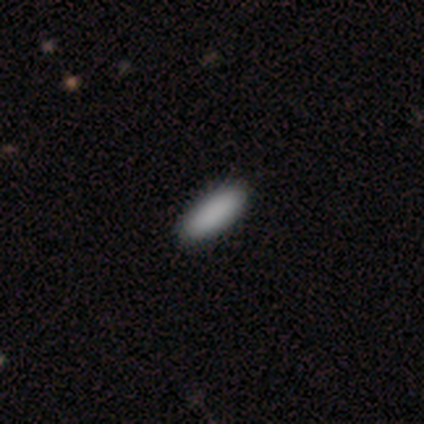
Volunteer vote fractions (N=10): Q: Smooth or featured?
A: smooth (100%)
Q: How rounded?
A: in between (50%); tied with: cigar-shaped (50%)
Q: Merging?
A: none (100%)